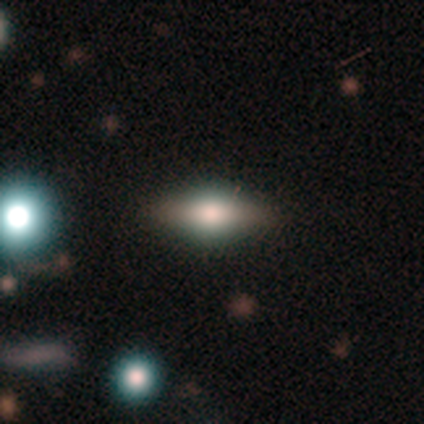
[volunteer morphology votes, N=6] smooth-or-featured: smooth: 50% | featured or disk: 33% | star or artifact: 17%
  how-rounded: cigar-shaped: 67% | in between: 33% | round: 0%
  merging: none: 60% | minor disturbance: 40% | major disturbance: 0% | merger: 0%